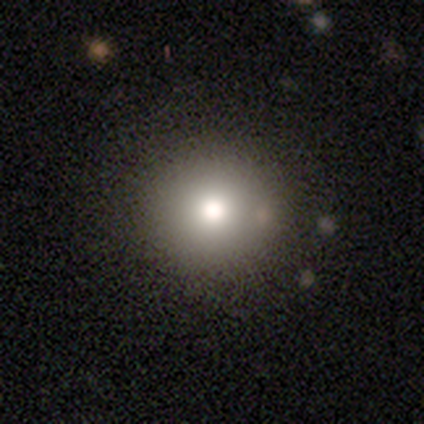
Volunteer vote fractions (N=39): smooth_or_featured: smooth (p=0.69) [alt: featured or disk p=0.15]
how_rounded: round (p=0.96) [alt: in between p=0.04]
merging: none (p=0.97) [alt: minor disturbance p=0.03]